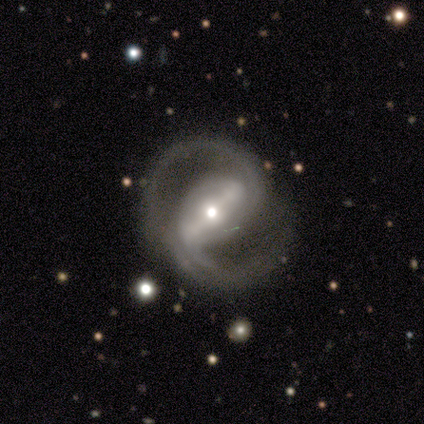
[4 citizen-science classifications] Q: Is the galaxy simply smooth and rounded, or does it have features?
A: featured or disk — 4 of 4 (100%).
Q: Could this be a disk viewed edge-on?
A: no — 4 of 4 (100%).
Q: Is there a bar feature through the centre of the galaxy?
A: strong — 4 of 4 (100%).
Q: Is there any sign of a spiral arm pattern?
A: yes — 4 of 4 (100%).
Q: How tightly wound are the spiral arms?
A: medium — 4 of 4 (100%).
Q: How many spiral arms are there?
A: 2 — 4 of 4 (100%).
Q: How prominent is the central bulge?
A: moderate — 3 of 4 (75%).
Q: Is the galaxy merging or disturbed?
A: none — 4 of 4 (100%).